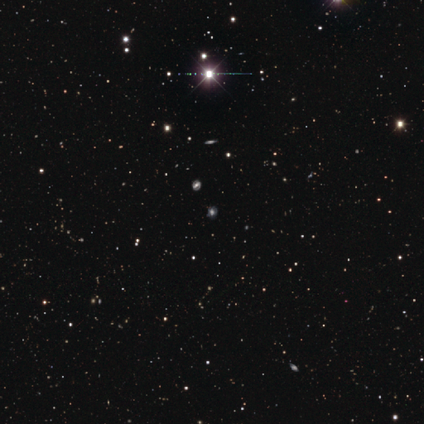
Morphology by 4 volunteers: Smooth or featured: star or artifact — 75% (smooth — 25%)